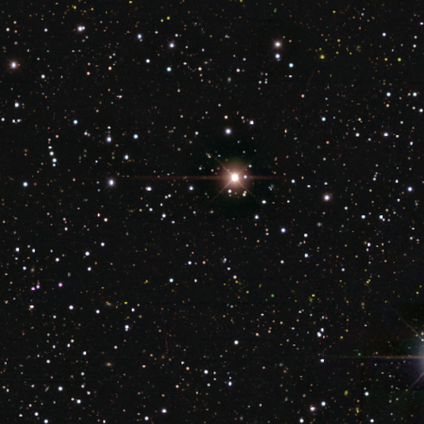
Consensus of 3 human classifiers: Q: Smooth or featured?
A: star or artifact (100%)